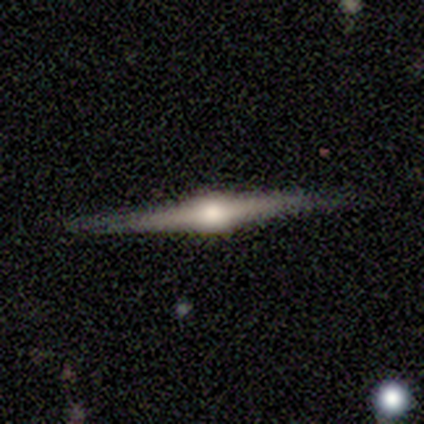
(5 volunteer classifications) smooth_or_featured: featured or disk (p=0.80) [alt: star or artifact p=0.20]
disk_edge_on: yes (p=1.00)
edge_on_bulge: rounded (p=1.00)
merging: none (p=1.00)